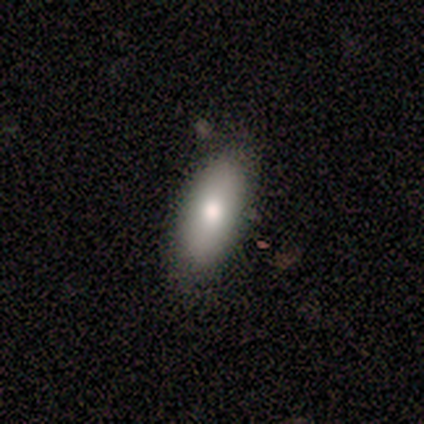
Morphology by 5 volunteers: This appears to be a smooth galaxy with no disk features (60%) that is in between round and cigar-shaped (100%). Merging: none (100%).